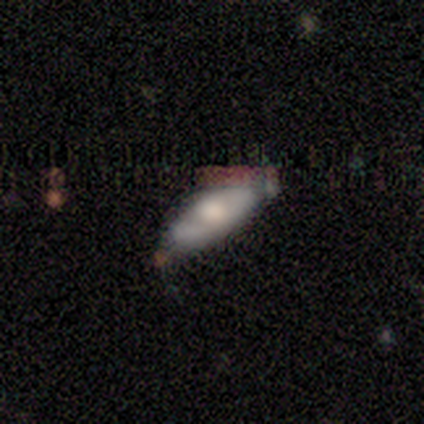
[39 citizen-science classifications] Smooth or featured? 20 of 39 (51%) said featured or disk. Edge-on disk? 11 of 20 (55%) said yes. Edge-on bulge? 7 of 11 (64%) said rounded. Merging? 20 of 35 (57%) said none.